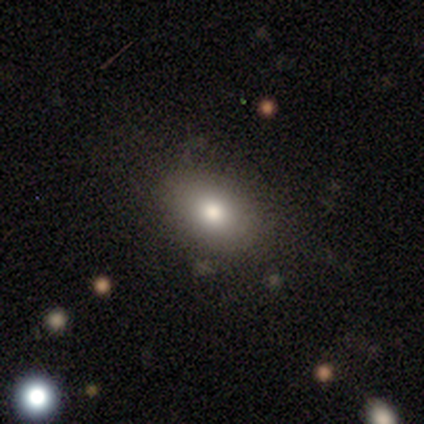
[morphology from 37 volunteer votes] Smooth or featured? smooth (78%)
How rounded? in between (90%)
Merging? none (84%)